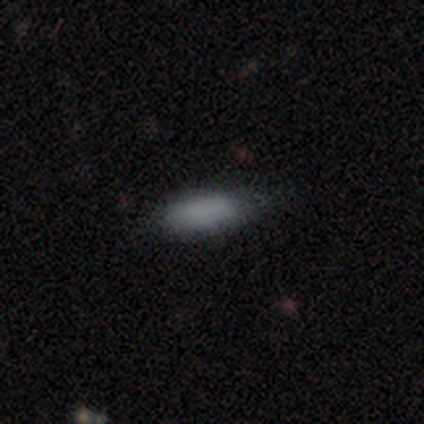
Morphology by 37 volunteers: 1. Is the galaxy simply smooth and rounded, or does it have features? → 89% smooth, 8% star or artifact, 3% featured or disk.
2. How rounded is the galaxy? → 70% in between, 30% cigar-shaped, 0% round.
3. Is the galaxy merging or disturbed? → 88% none, 9% minor disturbance, 3% major disturbance, 0% merger.